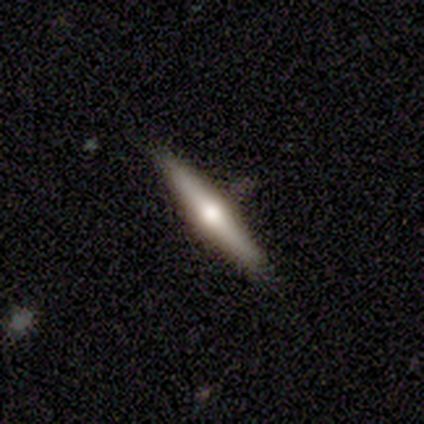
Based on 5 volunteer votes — Overall: featured or disk (60%; smooth 40%). Edge-on disk: yes (100%). Edge-on bulge: rounded (100%). Merging: none (60%; minor disturbance 40%).